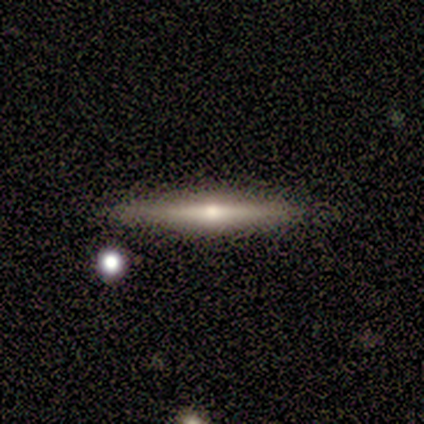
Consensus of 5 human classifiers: Overall: smooth (60%; featured or disk 40%). How rounded: cigar-shaped (100%). Merging: none (60%; minor disturbance 40%).